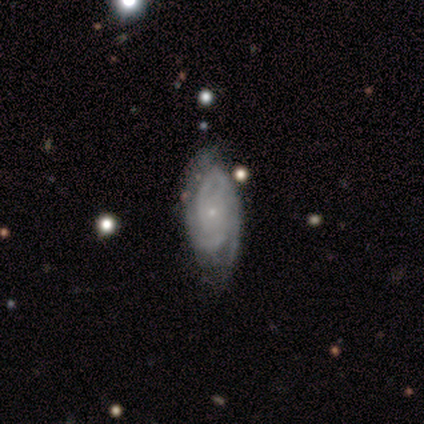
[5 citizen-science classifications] This appears to be a featured or disk galaxy (100%) with a weak bar (60%), 2 (40%) tight (80%) spiral arms (100%) and a small central bulge (80%). Merging: none (100%).